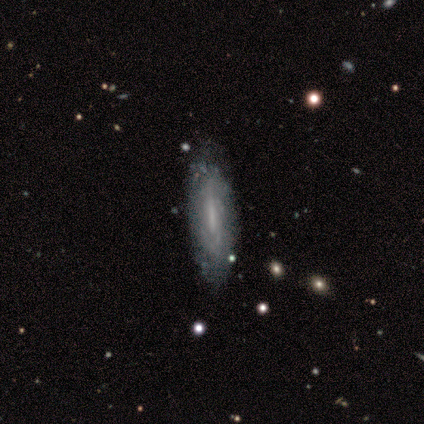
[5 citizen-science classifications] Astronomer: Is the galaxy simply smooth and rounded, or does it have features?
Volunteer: featured or disk — 60%.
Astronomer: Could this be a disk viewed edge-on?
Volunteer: no — 67%.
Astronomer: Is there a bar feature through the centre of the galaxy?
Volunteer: weak — 100%.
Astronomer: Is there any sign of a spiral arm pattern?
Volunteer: yes — 100%.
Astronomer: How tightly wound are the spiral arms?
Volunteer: tight — 50%, tied with loose at 50%.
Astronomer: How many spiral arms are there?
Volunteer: can't tell — 100%.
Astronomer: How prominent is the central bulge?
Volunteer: none — 100%.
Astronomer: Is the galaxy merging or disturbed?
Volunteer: minor disturbance — 50%.